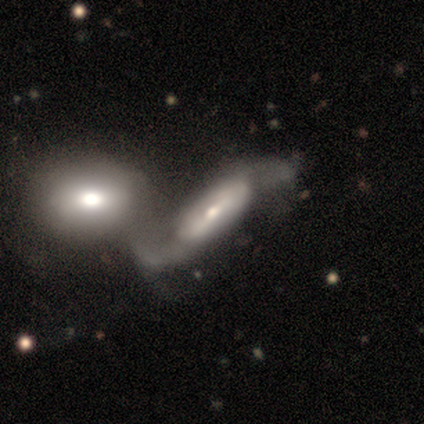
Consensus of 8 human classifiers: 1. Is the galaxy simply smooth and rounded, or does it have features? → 88% featured or disk, 12% smooth, 0% star or artifact.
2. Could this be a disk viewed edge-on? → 86% no, 14% yes.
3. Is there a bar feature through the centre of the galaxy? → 33% strong (tied), 33% weak (tied), 33% no (tied).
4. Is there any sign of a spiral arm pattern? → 50% yes (tied), 50% no (tied).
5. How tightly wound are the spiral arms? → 67% loose, 33% medium, 0% tight.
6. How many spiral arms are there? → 100% 2, 0% 1, 0% 3, 0% 4, 0% more than 4, 0% can't tell.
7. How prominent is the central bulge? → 50% moderate (tied), 50% small (tied), 0% dominant, 0% large, 0% none.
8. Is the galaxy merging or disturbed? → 62% merger, 25% major disturbance, 12% none, 0% minor disturbance.